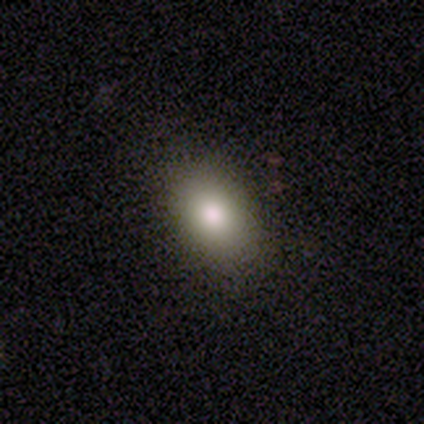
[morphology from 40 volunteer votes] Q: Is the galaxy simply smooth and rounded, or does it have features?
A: smooth — 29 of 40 (72%).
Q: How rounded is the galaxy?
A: in between — 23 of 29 (79%).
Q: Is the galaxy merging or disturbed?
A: none — 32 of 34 (94%).